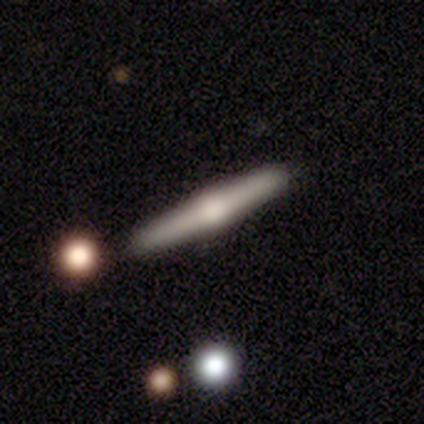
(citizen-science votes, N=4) Smooth or featured?
  - featured or disk: 100% *
  - smooth: 0%
  - star or artifact: 0%
Edge-on disk?
  - yes: 100% *
  - no: 0%
Edge-on bulge?
  - rounded: 100% *
  - boxy: 0%
  - none: 0%
Merging?
  - none: 75% *
  - minor disturbance: 25%
  - major disturbance: 0%
  - merger: 0%